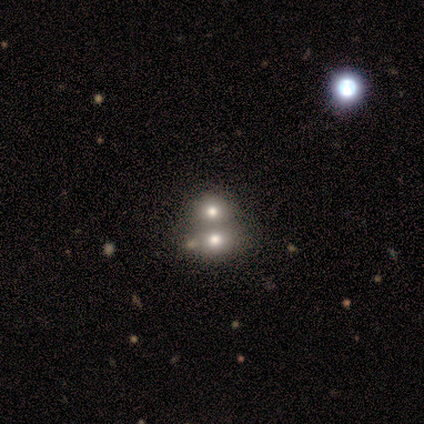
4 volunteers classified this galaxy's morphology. This is likely a smooth galaxy (75%). How rounded: clearly round (100%). Merging: clearly none (100%).